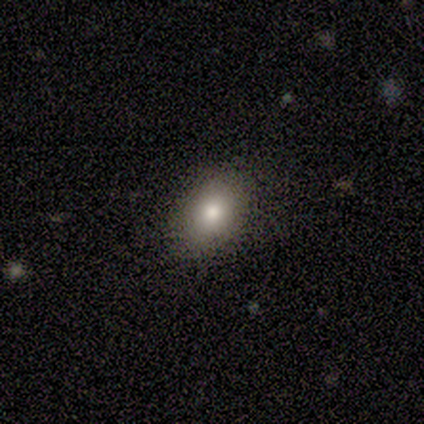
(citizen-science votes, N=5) A smooth galaxy with no disk features (60%) that is in between round and cigar-shaped (67%).

Vote fractions:
- Smooth or featured? smooth: 60% / star or artifact: 40% / featured or disk: 0%
- How rounded? in between: 67% / round: 33% / cigar-shaped: 0%
- Merging? none: 100% / minor disturbance: 0% / major disturbance: 0% / merger: 0%